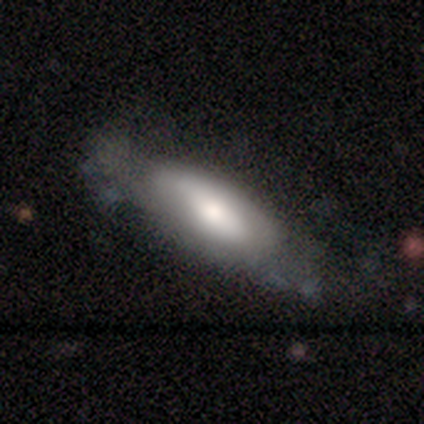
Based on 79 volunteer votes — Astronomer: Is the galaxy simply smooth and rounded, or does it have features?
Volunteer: smooth — 53% (runner-up: featured or disk, 42%).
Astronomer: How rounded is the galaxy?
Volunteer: in between — 90%.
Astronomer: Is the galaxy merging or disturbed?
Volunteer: none — 28% (runner-up: minor disturbance, 15%).